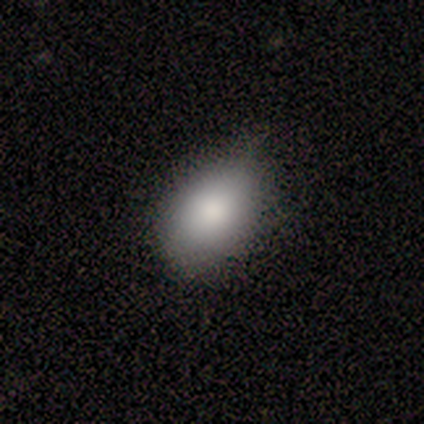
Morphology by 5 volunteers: type=smooth (60%); roundness=in between (100%); merging=none (75%).